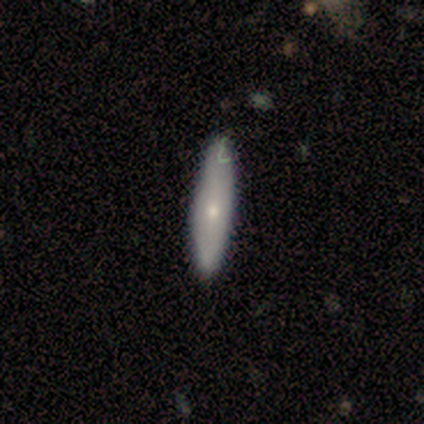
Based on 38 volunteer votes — smooth-or-featured: smooth: 50% | featured or disk: 45% | star or artifact: 5%
  how-rounded: cigar-shaped: 84% | in between: 16% | round: 0%
  merging: none: 39% | minor disturbance: 11% | major disturbance: 0% | merger: 0%